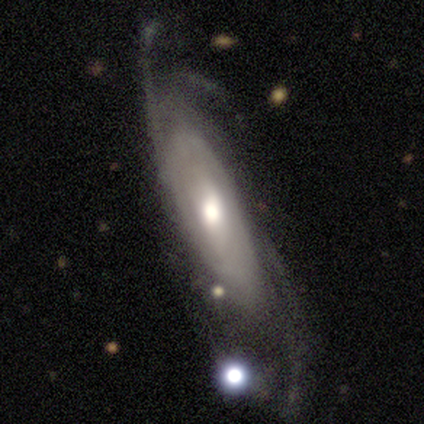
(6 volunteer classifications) smooth_or_featured: featured or disk (p=1.00)
disk_edge_on: no (p=1.00)
bar: no (p=0.83) [alt: weak p=0.17]
has_spiral_arms: yes (p=1.00)
spiral_winding: loose (p=0.50) [alt: tight p=0.33]
spiral_arm_count: can't tell (p=0.83) [alt: 2 p=0.17]
bulge_size: moderate (p=0.83) [alt: small p=0.17]
merging: none (p=0.33) [tied with: minor disturbance p=0.33, major disturbance p=0.33]